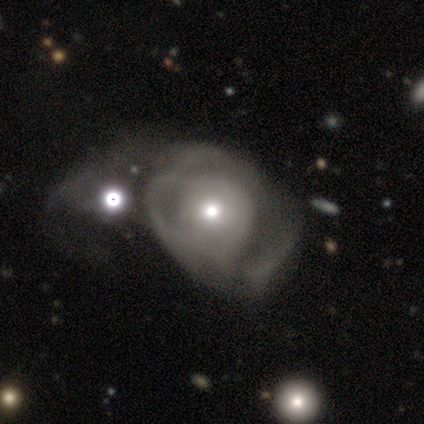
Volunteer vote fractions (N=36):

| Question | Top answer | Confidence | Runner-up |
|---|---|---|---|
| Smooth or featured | featured or disk | 58% | smooth (42%) |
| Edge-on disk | no | 100% | — |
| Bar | no | 90% | weak (10%) |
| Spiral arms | yes | 62% | no (38%) |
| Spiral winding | medium | 46% | tight (38%) |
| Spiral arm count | can't tell | 69% | 2 (15%) |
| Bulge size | small | 62% | moderate (29%) |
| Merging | major disturbance | 36% | merger (28%) |